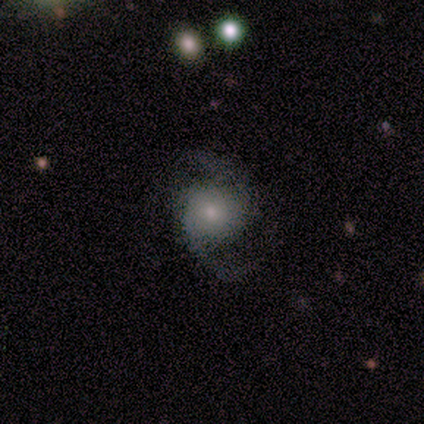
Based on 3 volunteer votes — Smooth or featured: featured or disk — 67% (smooth — 33%)
Edge-on disk: no — 100%
Bar: no — 100%
Spiral arms: yes — 100%
Spiral winding: medium — 100%
Spiral arm count: 2 — 100%
Bulge size: moderate — 50% (tied with small — 50%)
Merging: none — 67% (major disturbance — 33%)